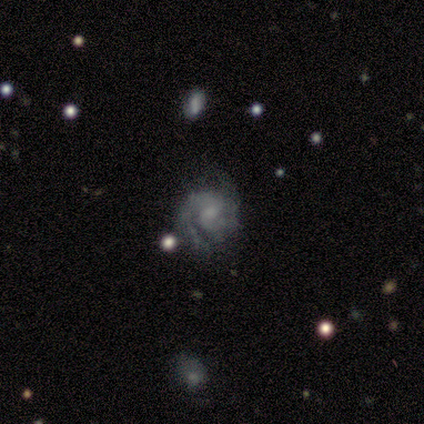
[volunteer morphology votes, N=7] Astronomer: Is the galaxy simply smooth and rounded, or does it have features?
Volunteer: featured or disk — 86%.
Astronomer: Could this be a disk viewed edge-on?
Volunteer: no — 100%.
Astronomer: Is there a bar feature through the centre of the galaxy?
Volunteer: weak — 50%, tied with no at 50%.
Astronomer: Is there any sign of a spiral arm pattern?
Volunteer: yes — 83%.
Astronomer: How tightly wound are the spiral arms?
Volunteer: medium — 60%.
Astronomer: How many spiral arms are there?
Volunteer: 2 — 60%.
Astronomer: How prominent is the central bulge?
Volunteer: none — 50% (runner-up: small, 33%).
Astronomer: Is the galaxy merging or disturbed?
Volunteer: none — 86%.